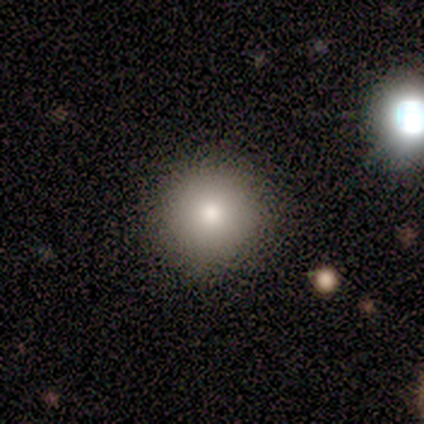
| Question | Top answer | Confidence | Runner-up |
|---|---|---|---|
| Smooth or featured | smooth | 75% | star or artifact (25%) |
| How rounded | round | 100% | — |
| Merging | none | 100% | — |